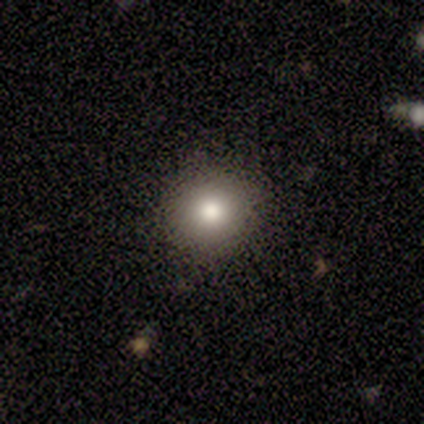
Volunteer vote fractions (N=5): Smooth or featured? 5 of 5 (100%) said smooth. How rounded? 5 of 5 (100%) said round. Merging? 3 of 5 (60%) said none.